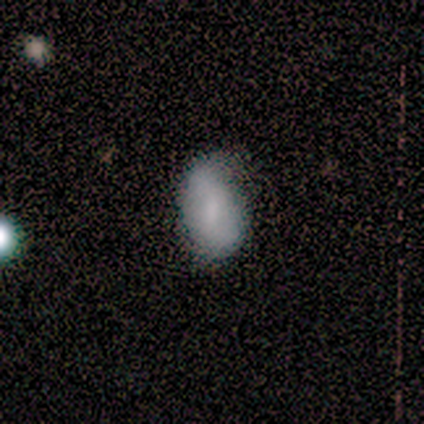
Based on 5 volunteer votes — Smooth or featured: smooth — 60% (featured or disk — 20%)
How rounded: in between — 100%
Merging: none — 75% (minor disturbance — 25%)